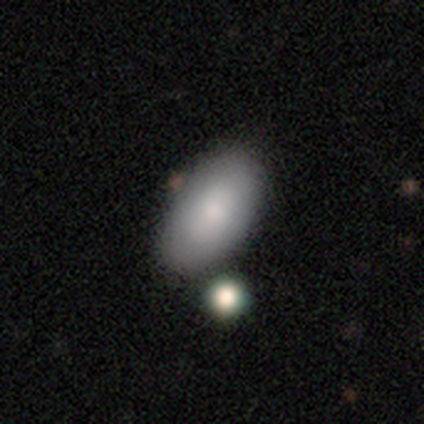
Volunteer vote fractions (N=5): A smooth galaxy with no disk features (60%) that is in between round and cigar-shaped (100%).

Vote fractions:
- Smooth or featured? smooth: 60% / featured or disk: 40% / star or artifact: 0%
- How rounded? in between: 100% / round: 0% / cigar-shaped: 0%
- Merging? none: 100% / minor disturbance: 0% / major disturbance: 0% / merger: 0%